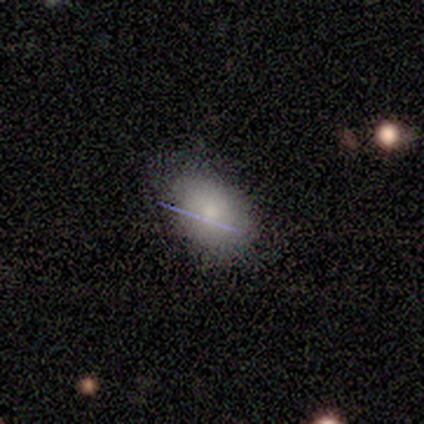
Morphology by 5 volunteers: Q: Smooth or featured?
A: smooth (80%); runner-up: featured or disk (20%)
Q: How rounded?
A: in between (75%); runner-up: round (25%)
Q: Merging?
A: none (100%)